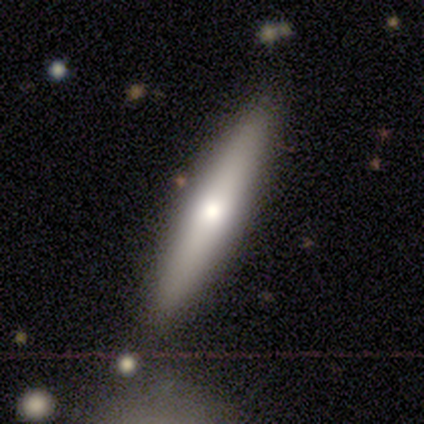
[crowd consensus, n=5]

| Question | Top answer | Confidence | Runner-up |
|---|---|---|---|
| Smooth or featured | smooth | 80% | featured or disk (20%) |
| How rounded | cigar-shaped | 100% | — |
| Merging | none | 80% | minor disturbance (20%) |